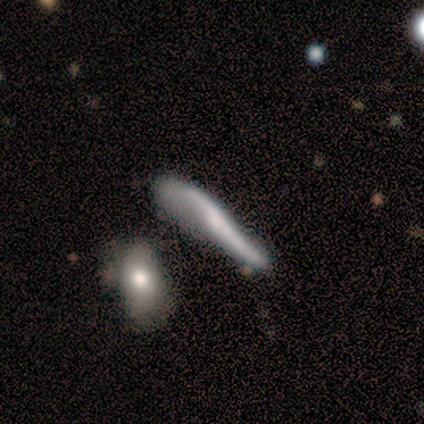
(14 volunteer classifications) smooth-or-featured: featured or disk: 64% | smooth: 36% | star or artifact: 0%
  disk-edge-on: yes: 56% | no: 44%
    edge-on-bulge: none: 80% | rounded: 20% | boxy: 0%
  merging: none: 64% | minor disturbance: 21% | major disturbance: 14% | merger: 0%